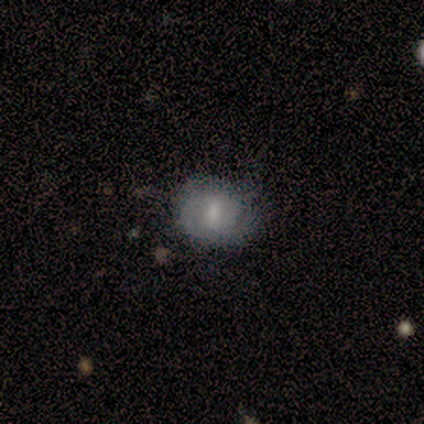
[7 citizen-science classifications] smooth_or_featured: featured or disk (p=0.57) [alt: smooth p=0.29]
disk_edge_on: no (p=1.00)
bar: no (p=0.75) [alt: weak p=0.25]
has_spiral_arms: yes (p=0.50) [tied with: no p=0.50]
spiral_winding: tight (p=0.50) [tied with: medium p=0.50]
spiral_arm_count: 1 (p=0.50) [tied with: can't tell p=0.50]
bulge_size: moderate (p=0.75) [alt: small p=0.25]
merging: none (p=0.50) [alt: minor disturbance p=0.17]